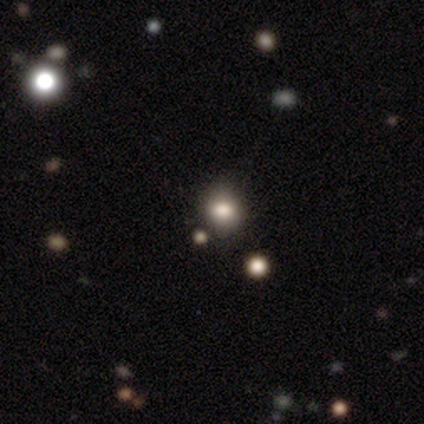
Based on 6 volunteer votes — smooth_or_featured: smooth (p=0.67) [alt: featured or disk p=0.17]
how_rounded: round (p=0.75) [alt: in between p=0.25]
merging: none (p=0.60) [alt: merger p=0.40]